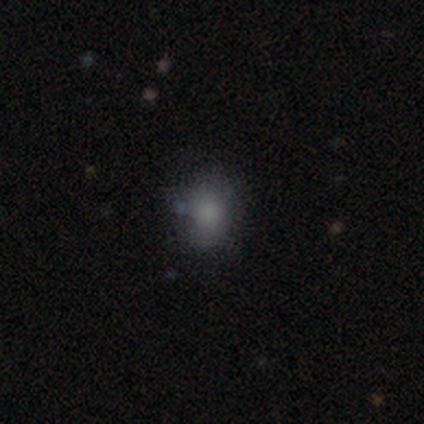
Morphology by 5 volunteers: Smooth or featured: smooth — 60% (featured or disk — 20%)
How rounded: round — 67% (in between — 33%)
Merging: none — 75% (minor disturbance — 25%)